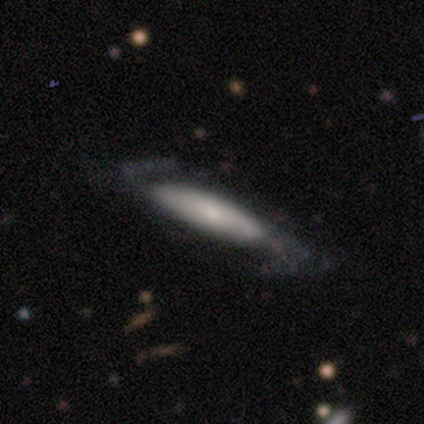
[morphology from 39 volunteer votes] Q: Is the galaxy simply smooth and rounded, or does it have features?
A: featured or disk — 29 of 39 (74%).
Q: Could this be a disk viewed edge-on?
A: no — 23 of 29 (79%).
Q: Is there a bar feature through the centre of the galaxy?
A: no — 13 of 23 (57%).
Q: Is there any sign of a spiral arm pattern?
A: yes — 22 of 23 (96%).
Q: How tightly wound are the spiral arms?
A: loose — 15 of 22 (68%).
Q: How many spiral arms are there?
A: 2 — 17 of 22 (77%).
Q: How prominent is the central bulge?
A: small — 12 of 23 (52%).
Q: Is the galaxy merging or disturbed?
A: none — 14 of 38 (37%).